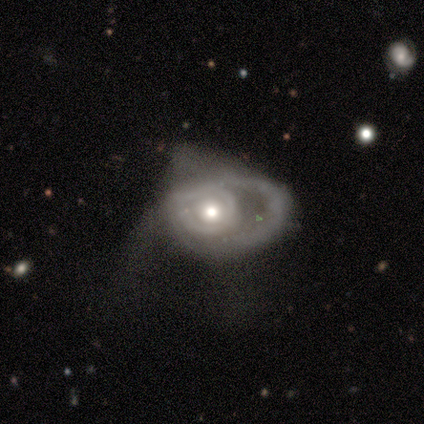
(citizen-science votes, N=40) Smooth or featured: featured or disk — 80% (smooth — 20%)
Edge-on disk: no — 88% (yes — 12%)
Bar: no — 82% (weak — 14%)
Spiral arms: yes — 50% (tied with no — 50%)
Spiral winding: medium — 43% (tight — 36%)
Spiral arm count: can't tell — 43% (1 — 29%)
Bulge size: moderate — 68% (large — 21%)
Merging: major disturbance — 57% (minor disturbance — 20%)